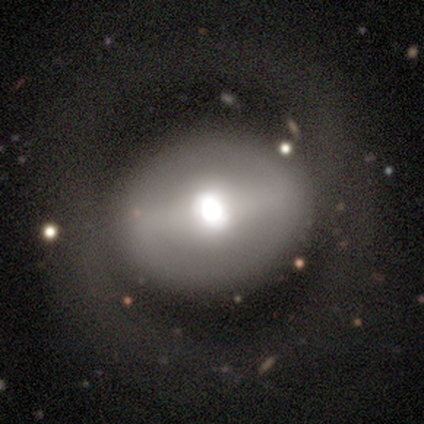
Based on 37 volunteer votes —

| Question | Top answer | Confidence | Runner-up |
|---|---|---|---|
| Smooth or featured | smooth | 49% | featured or disk (43%) |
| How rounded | round | 61% | in between (33%) |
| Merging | none | 44% | major disturbance (12%) |